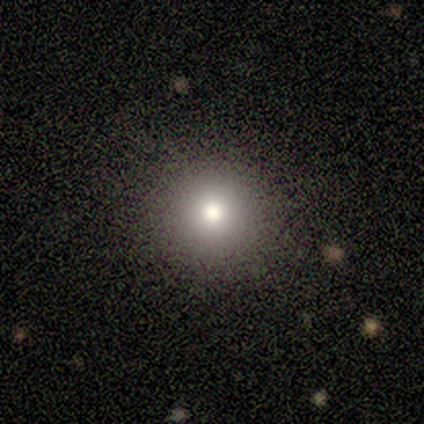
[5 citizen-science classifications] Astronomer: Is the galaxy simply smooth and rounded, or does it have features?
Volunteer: smooth — 80%.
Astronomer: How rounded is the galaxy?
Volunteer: round — 100%.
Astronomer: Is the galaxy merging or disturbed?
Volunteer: none — 75%.